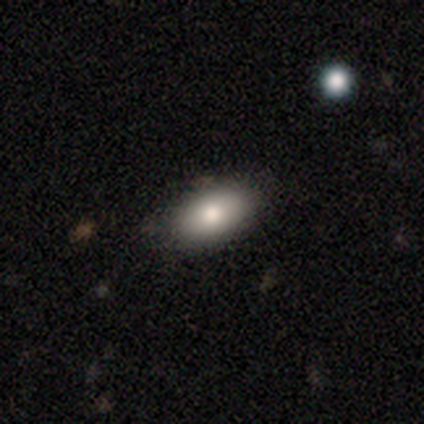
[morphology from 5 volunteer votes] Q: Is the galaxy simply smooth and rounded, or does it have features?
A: smooth — 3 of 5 (60%).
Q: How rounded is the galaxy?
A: in between — 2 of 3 (67%).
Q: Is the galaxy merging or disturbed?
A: none — 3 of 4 (75%).